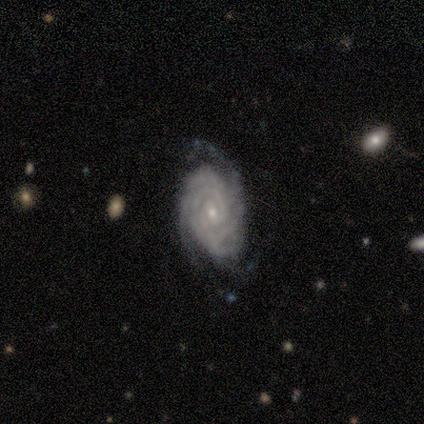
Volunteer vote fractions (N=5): Morphology: type=featured or disk (100%); edge-on=no (100%); bar=no (80%); spiral arms=yes (100%); winding=tight (80%); arm count=3 (60%); bulge=small (60%); merging=none (100%).